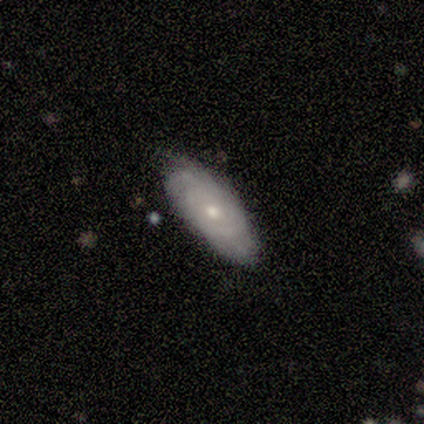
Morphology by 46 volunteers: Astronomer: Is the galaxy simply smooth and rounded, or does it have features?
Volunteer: featured or disk — 54% (runner-up: smooth, 41%).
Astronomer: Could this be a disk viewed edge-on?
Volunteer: no — 92%.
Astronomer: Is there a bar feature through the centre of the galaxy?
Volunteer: no — 96%.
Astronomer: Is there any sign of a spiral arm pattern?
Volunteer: yes — 74%.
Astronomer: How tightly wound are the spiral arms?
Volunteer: tight — 82%.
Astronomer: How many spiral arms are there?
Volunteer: can't tell — 71%.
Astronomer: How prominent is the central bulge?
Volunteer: small — 57% (runner-up: moderate, 43%).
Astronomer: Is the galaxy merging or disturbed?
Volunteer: none — 70%.